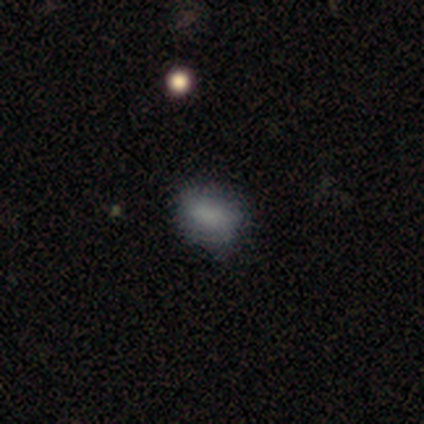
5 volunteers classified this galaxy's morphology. Volunteers were most divided on "how rounded": in between: 80%, round: 20%, cigar-shaped: 0%. More confident: smooth or featured — smooth (100%); merging — none (100%).